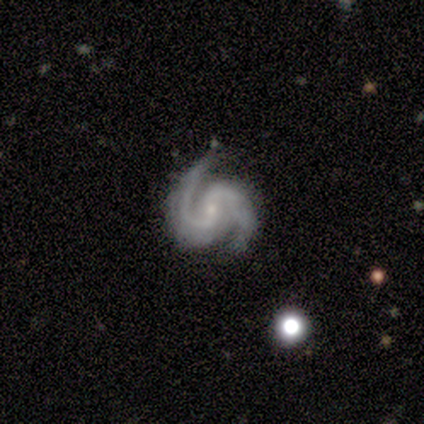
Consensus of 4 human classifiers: A featured or disk galaxy (100%) with a weak bar (50%), 2 (100%) medium (75%) spiral arms (100%) and a small central bulge (75%). Merging: none (75%).